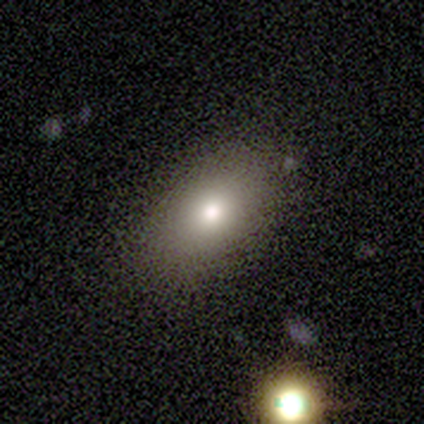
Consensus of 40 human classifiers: This appears to be a smooth galaxy with no disk features (85%) that is in between round and cigar-shaped (85%). Merging: none (89%).